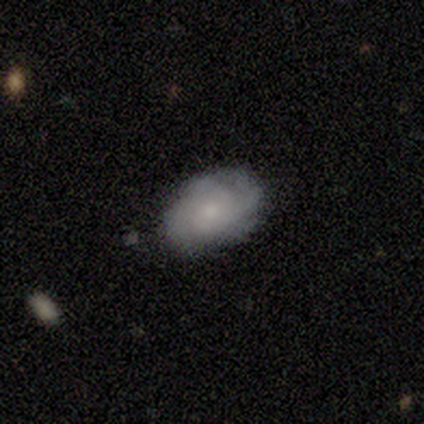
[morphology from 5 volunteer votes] type=featured or disk (60%); edge-on=no (100%); bar=no (67%); spiral arms=yes (100%); winding=tight (100%); arm count=3 (33%, tied with 4 and more than 4); bulge=small (67%); merging=none (50%).